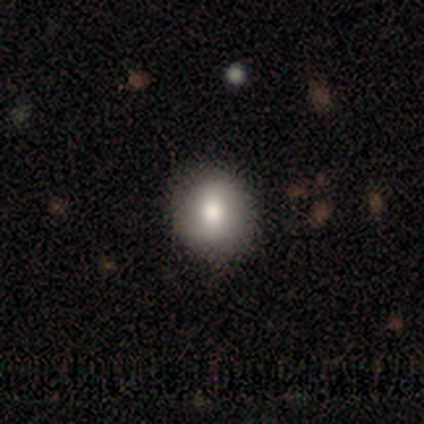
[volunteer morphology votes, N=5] Smooth or featured: smooth — 80% (featured or disk — 20%)
How rounded: round — 100%
Merging: none — 100%